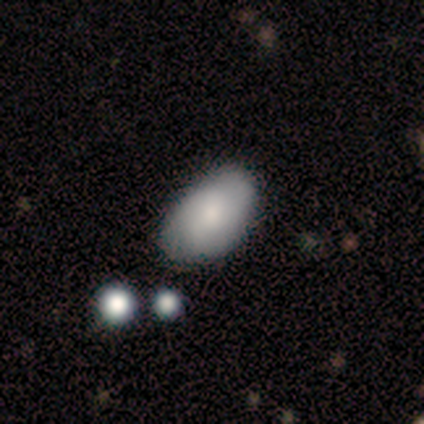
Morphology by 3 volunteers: This appears to be a smooth galaxy with no disk features (67%) that is in between round and cigar-shaped (100%). Merging: none (100%).